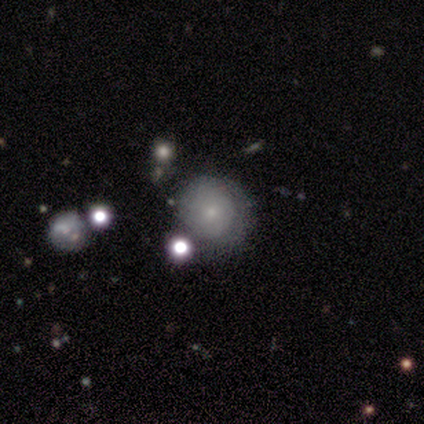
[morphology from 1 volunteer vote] Smooth or featured?
  - featured or disk: 100% *
  - smooth: 0%
  - star or artifact: 0%
Edge-on disk?
  - no: 100% *
  - yes: 0%
Bar?
  - no: 100% *
  - strong: 0%
  - weak: 0%
Spiral arms?
  - yes: 100% *
  - no: 0%
Spiral winding?
  - tight: 100% *
  - medium: 0%
  - loose: 0%
Spiral arm count?
  - can't tell: 100% *
  - 1: 0%
  - 2: 0%
  - 3: 0%
  - 4: 0%
  - more than 4: 0%
Bulge size?
  - small: 100% *
  - dominant: 0%
  - large: 0%
  - moderate: 0%
  - none: 0%
Merging?
  - minor disturbance: 100% *
  - none: 0%
  - major disturbance: 0%
  - merger: 0%